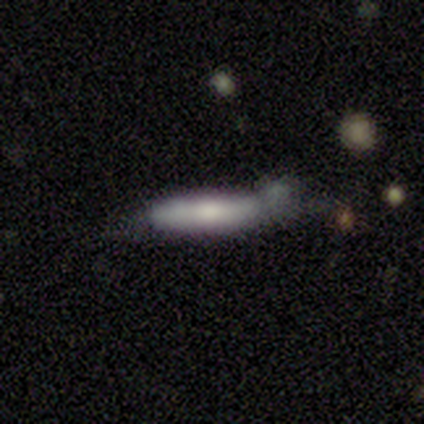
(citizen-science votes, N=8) Volunteers were most divided on "smooth or featured" (2-way tie): smooth: 38%, featured or disk: 38%, star or artifact: 25%; "merging" (2-way tie): none: 50%, minor disturbance: 50%, major disturbance: 0%, merger: 0%. More confident: how rounded — cigar-shaped (100%).